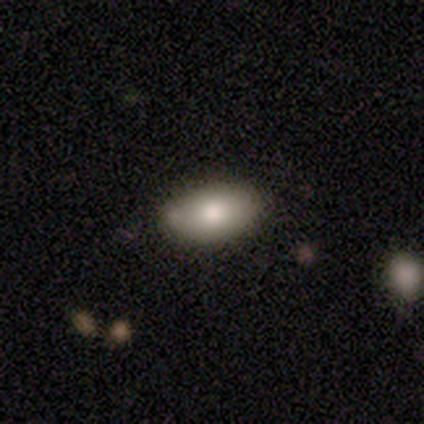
Volunteers were most divided on "merging": none: 77%, minor disturbance: 21%, major disturbance: 1%, merger: 1%. More confident: how rounded — in between (98%); smooth or featured — smooth (88%).